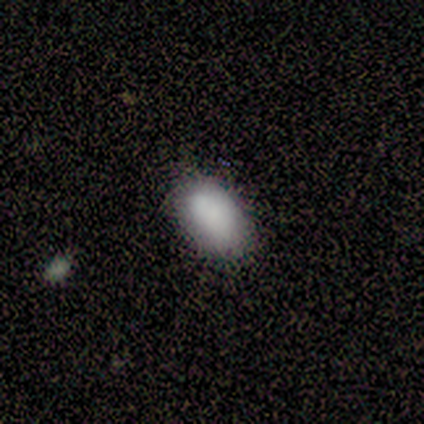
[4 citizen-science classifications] Q: Smooth or featured?
A: smooth (100%)
Q: How rounded?
A: in between (100%)
Q: Merging?
A: none (50%); runner-up: minor disturbance (25%)